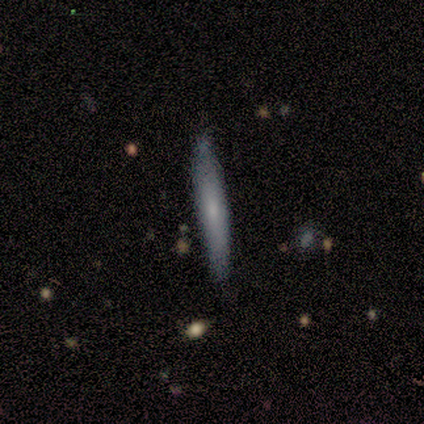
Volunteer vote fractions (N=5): Volunteers were most divided on "smooth or featured": featured or disk: 60%, smooth: 40%, star or artifact: 0%. More confident: edge-on disk — yes (100%); merging — none (100%); edge-on bulge — rounded (67%).